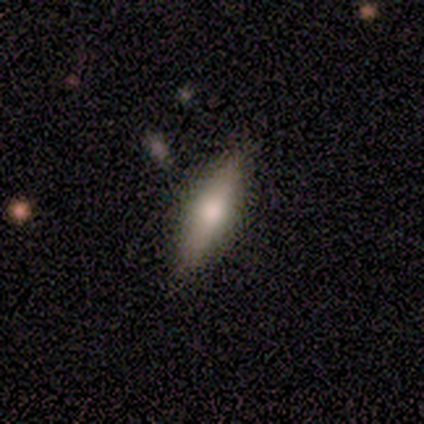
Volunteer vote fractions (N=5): A smooth galaxy with no disk features (60%) that is round (33%, tied with in between and cigar-shaped).

Vote fractions:
- Smooth or featured? smooth: 60% / featured or disk: 40% / star or artifact: 0%
- How rounded? round: 33% (tied) / in between: 33% (tied) / cigar-shaped: 33% (tied)
- Merging? none: 80% / minor disturbance: 20% / major disturbance: 0% / merger: 0%